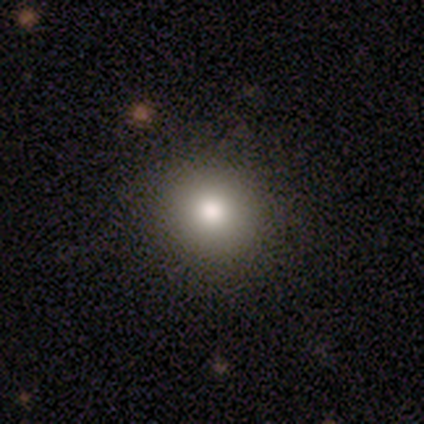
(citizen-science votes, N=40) Smooth or featured: smooth — 88% (star or artifact — 8%)
How rounded: round — 97% (in between — 3%)
Merging: none — 86% (minor disturbance — 11%)